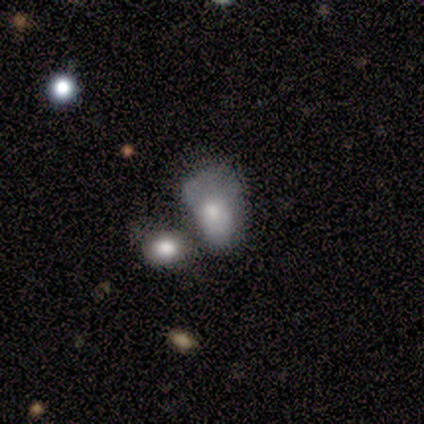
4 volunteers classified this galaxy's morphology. smooth 75%, featured or disk 25%, star or artifact 0%. Down the decision tree: how rounded — in between (67%); merging — merger (75%).